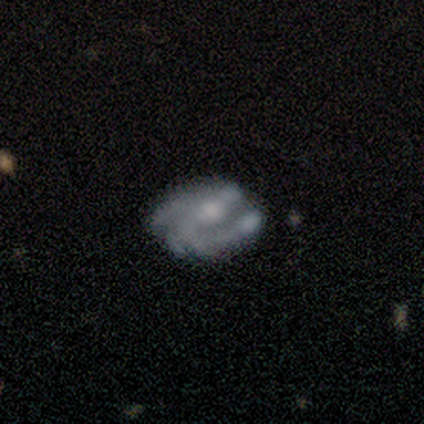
Q: Smooth or featured?
A: featured or disk (86%); runner-up: smooth (14%)
Q: Edge-on disk?
A: no (100%)
Q: Bar?
A: no (100%)
Q: Spiral arms?
A: yes (83%); runner-up: no (17%)
Q: Spiral winding?
A: medium (80%); runner-up: tight (20%)
Q: Spiral arm count?
A: 2 (40%); tied with: can't tell (40%)
Q: Bulge size?
A: small (50%); runner-up: moderate (33%)
Q: Merging?
A: minor disturbance (57%); runner-up: none (29%)